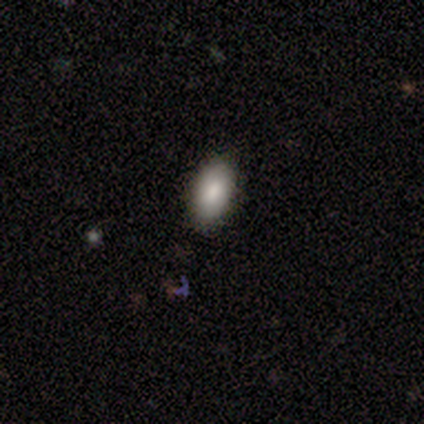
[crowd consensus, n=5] Consensus on every question: smooth or featured — smooth (100%); how rounded — in between (100%); merging — none (100%).